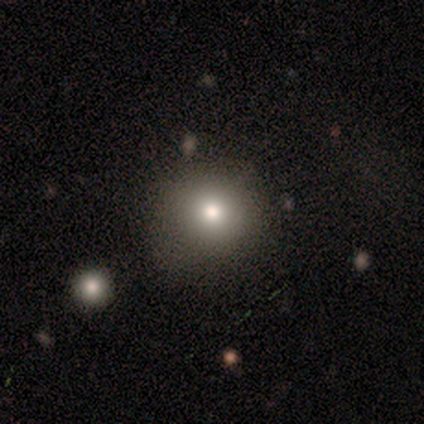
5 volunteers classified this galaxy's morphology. Volunteers were most divided on "merging": none: 60%, minor disturbance: 40%, major disturbance: 0%, merger: 0%. More confident: smooth or featured — smooth (100%); how rounded — round (80%).